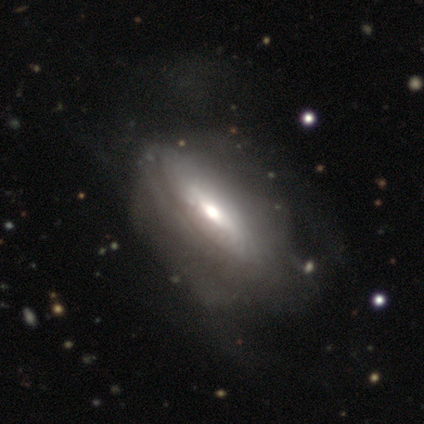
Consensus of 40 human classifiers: featured or disk 82%, smooth 12%, star or artifact 5%. Down the decision tree: edge-on disk — no (70%); bar — no (65%); spiral arms — no (65%); bulge size — moderate (70%); merging — major disturbance (29%).